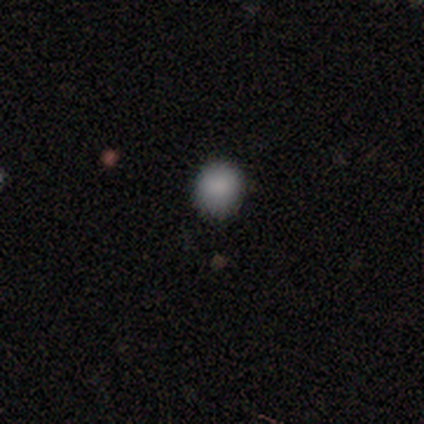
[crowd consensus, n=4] This is clearly a smooth galaxy (100%). How rounded: likely round (75%). Merging: likely none (75%).